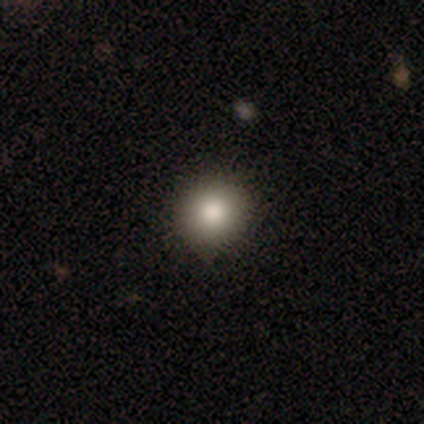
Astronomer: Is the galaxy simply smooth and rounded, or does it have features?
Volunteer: smooth — 89%.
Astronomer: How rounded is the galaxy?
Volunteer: round — 91%.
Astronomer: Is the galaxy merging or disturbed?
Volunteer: none — 89%.